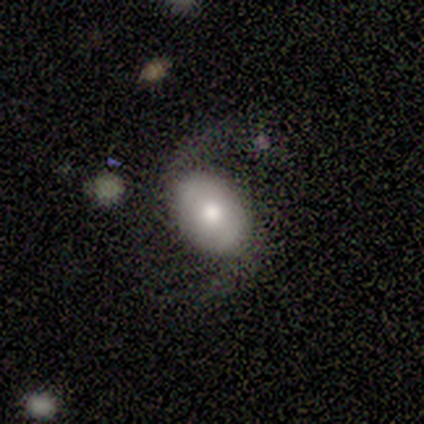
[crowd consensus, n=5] smooth-or-featured: smooth: 60% | featured or disk: 40% | star or artifact: 0%
  how-rounded: in between: 100% | round: 0% | cigar-shaped: 0%
  merging: major disturbance: 80% | none: 20% | minor disturbance: 0% | merger: 0%